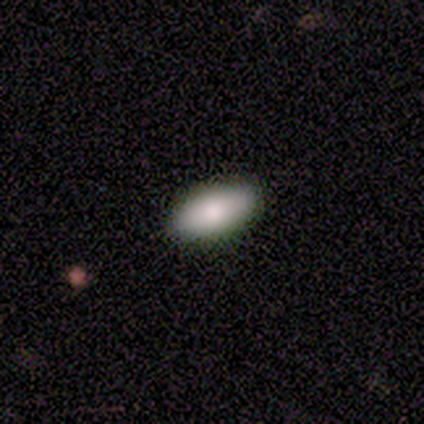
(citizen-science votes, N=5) Smooth or featured? 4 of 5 (80%) said smooth. How rounded? 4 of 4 (100%) said in between. Merging? 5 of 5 (100%) said none.